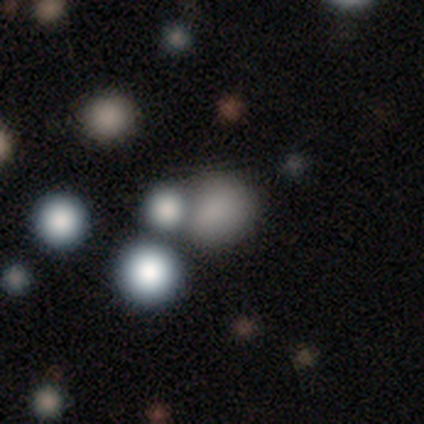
Overall: smooth (56%; star or artifact 31%). How rounded: round (85%). Merging: none (56%; merger 24%).